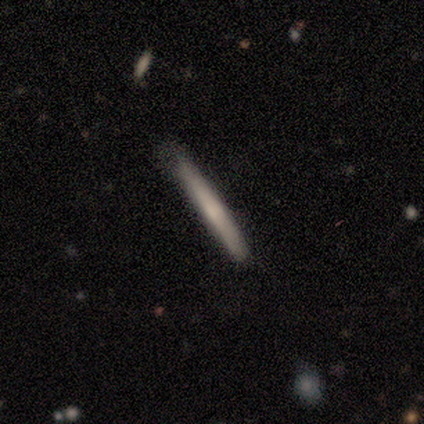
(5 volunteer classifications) Smooth or featured? smooth (80%)
How rounded? cigar-shaped (100%)
Merging? none (60%)